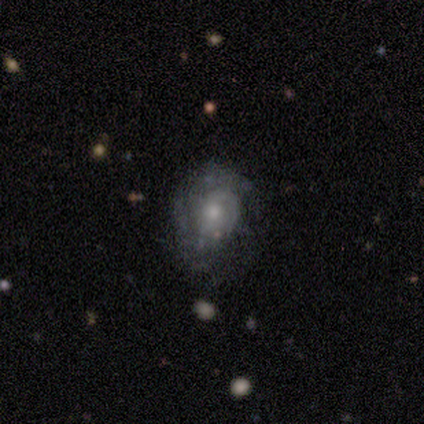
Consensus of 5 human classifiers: This is clearly a featured or disk galaxy (80%). It is clearly not viewed edge-on (100%). Bar: likely no (75%). Spiral arm pattern: likely yes (75%). Spiral arm count: marginally 1 (33%, tied with 2 and 3). Spiral winding: likely tight (67%). Central bulge: clearly moderate (100%). Merging: clearly none (100%).